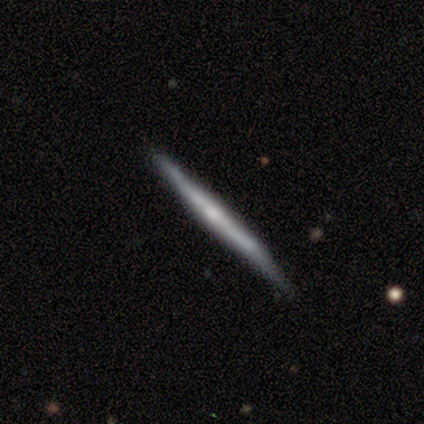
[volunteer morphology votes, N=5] Volunteers were most divided on "edge-on disk": yes: 75%, no: 25%. More confident: edge-on bulge — none (100%); smooth or featured — featured or disk (80%); merging — none (80%).